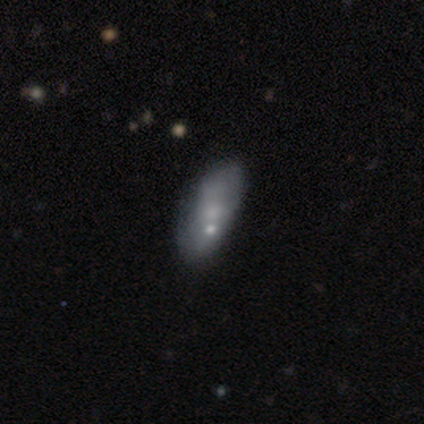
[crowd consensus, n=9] smooth 78%, featured or disk 22%, star or artifact 0%. Down the decision tree: how rounded — in between (71%); merging — none (33%, tied with minor disturbance and major disturbance).